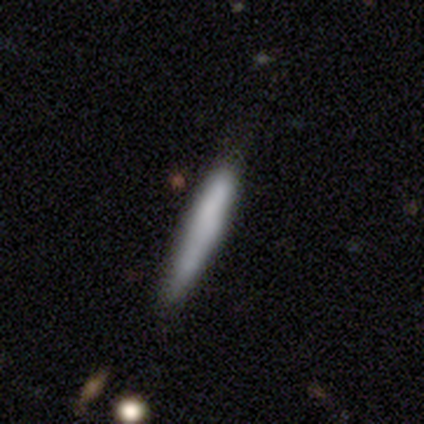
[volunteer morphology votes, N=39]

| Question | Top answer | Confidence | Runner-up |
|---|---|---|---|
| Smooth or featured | smooth | 79% | featured or disk (10%) |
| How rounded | cigar-shaped | 100% | — |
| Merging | none | 71% | minor disturbance (23%) |